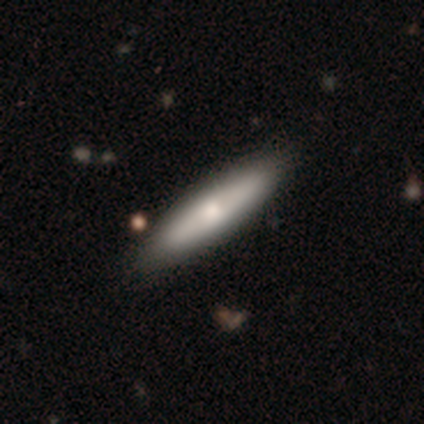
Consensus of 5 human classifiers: Morphology: type=featured or disk (60%); edge-on=yes (67%); edge-on bulge=rounded (100%); merging=none (100%).